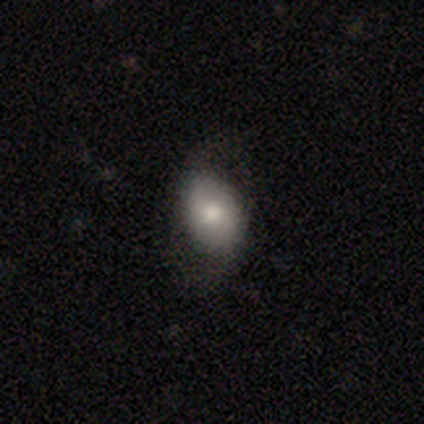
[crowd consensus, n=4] Overall: smooth (50%, tied with featured or disk). How rounded: in between (100%). Merging: none (75%).